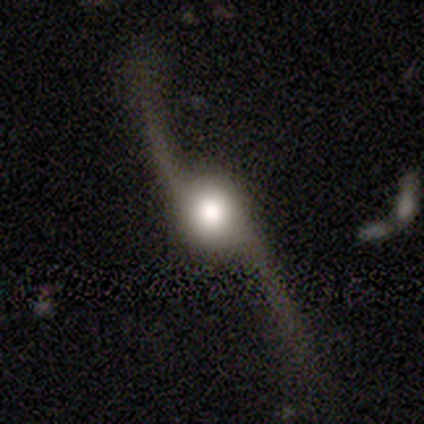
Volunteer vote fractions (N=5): Smooth or featured: featured or disk — 100%
Edge-on disk: no — 100%
Bar: no — 100%
Spiral arms: yes — 80% (no — 20%)
Spiral winding: loose — 100%
Spiral arm count: 2 — 100%
Bulge size: large — 80% (moderate — 20%)
Merging: none — 100%